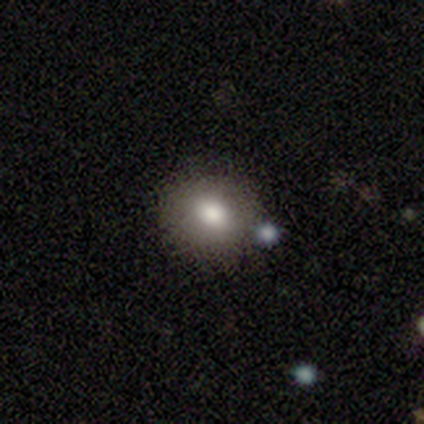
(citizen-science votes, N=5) Q: Smooth or featured?
A: smooth (100%)
Q: How rounded?
A: round (100%)
Q: Merging?
A: none (100%)